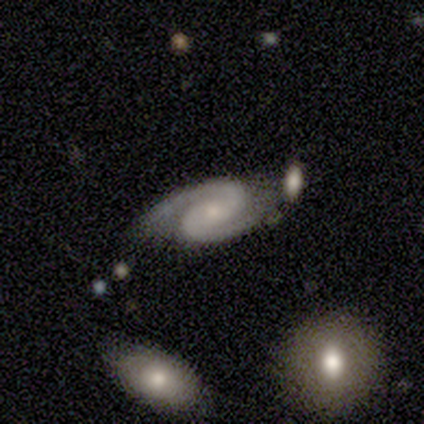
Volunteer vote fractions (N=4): Q: Smooth or featured?
A: featured or disk (100%)
Q: Edge-on disk?
A: no (100%)
Q: Bar?
A: weak (50%); tied with: no (50%)
Q: Spiral arms?
A: yes (100%)
Q: Spiral winding?
A: medium (75%); runner-up: tight (25%)
Q: Spiral arm count?
A: 2 (100%)
Q: Bulge size?
A: small (100%)
Q: Merging?
A: none (75%); runner-up: minor disturbance (25%)